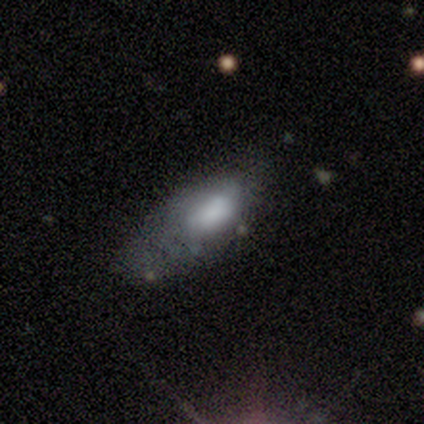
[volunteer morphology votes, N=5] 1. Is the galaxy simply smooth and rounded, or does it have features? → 60% featured or disk, 40% smooth, 0% star or artifact.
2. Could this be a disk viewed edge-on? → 100% no, 0% yes.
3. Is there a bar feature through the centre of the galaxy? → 67% no, 33% weak, 0% strong.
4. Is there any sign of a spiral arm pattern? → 100% no, 0% yes.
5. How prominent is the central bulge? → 33% large (tied), 33% moderate (tied), 33% none (tied), 0% dominant, 0% small.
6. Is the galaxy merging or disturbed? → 80% none, 20% minor disturbance, 0% major disturbance, 0% merger.